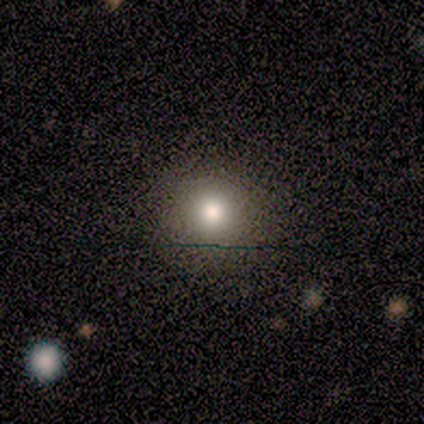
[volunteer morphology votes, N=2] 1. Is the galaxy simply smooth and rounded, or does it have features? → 100% star or artifact, 0% smooth, 0% featured or disk.